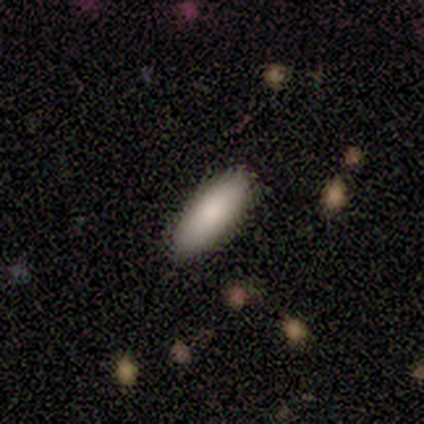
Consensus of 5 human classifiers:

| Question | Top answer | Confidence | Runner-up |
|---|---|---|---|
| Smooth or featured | smooth | 100% | — |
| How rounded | in between | 100% | — |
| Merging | none | 100% | — |